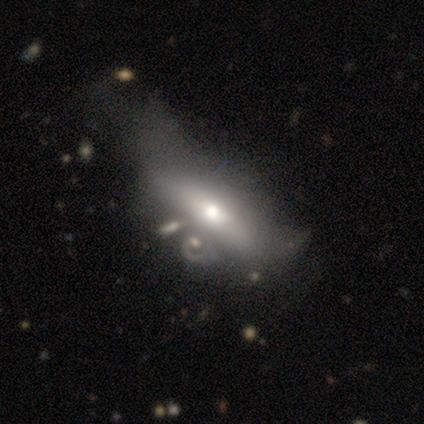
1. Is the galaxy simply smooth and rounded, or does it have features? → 60% featured or disk, 40% smooth, 0% star or artifact.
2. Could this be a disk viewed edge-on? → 67% yes, 33% no.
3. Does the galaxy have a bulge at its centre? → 100% rounded, 0% boxy, 0% none.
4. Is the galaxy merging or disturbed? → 40% minor disturbance, 20% none, 20% major disturbance, 20% merger.